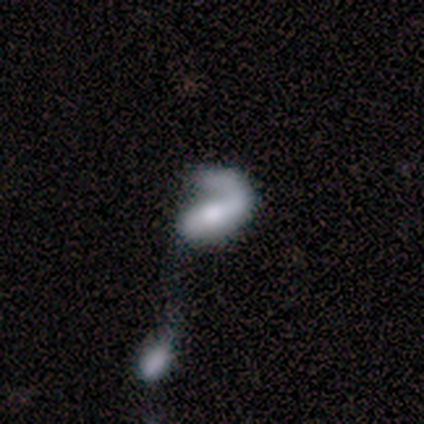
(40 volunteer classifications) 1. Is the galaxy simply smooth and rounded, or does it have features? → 72% featured or disk, 18% smooth, 10% star or artifact.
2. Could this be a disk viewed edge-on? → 97% no, 3% yes.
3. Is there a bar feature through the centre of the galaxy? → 39% no, 36% strong, 25% weak.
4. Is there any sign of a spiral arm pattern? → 89% yes, 11% no.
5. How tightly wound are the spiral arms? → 40% medium (tied), 40% loose (tied), 20% tight.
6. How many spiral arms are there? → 84% 1, 12% 2, 4% more than 4, 0% 3, 0% 4, 0% can't tell.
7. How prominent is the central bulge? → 43% moderate, 25% small, 18% large, 11% none, 4% dominant.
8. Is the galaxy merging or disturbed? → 47% major disturbance, 39% merger, 11% minor disturbance, 3% none.